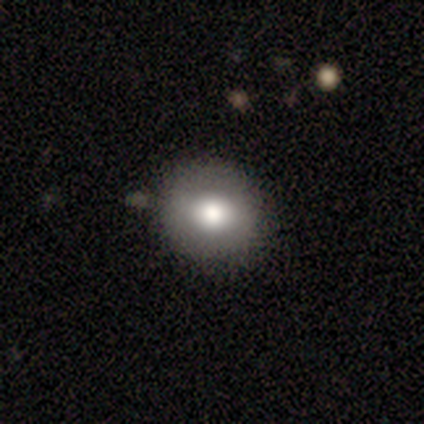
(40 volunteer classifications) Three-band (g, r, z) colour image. It shows a smooth galaxy with no disk features (70%) that is round (89%). Merging: none (89%).